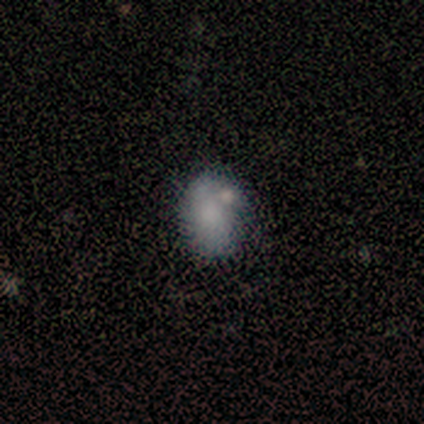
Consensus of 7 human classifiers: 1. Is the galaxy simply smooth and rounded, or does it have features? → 43% smooth (tied), 43% featured or disk (tied), 14% star or artifact.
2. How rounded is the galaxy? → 100% in between, 0% round, 0% cigar-shaped.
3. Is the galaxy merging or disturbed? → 67% none, 33% minor disturbance, 0% major disturbance, 0% merger.